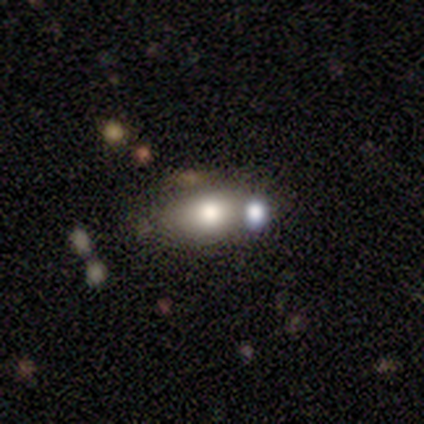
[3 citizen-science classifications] smooth_or_featured: smooth (p=0.67) [alt: star or artifact p=0.33]
how_rounded: in between (p=1.00)
merging: none (p=0.50) [tied with: merger p=0.50]